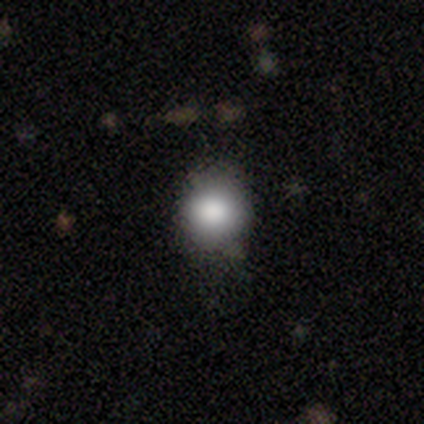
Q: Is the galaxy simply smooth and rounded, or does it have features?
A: smooth — 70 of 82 (85%).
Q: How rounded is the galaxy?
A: round — 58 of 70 (83%).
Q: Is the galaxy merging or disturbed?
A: none — 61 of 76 (80%).